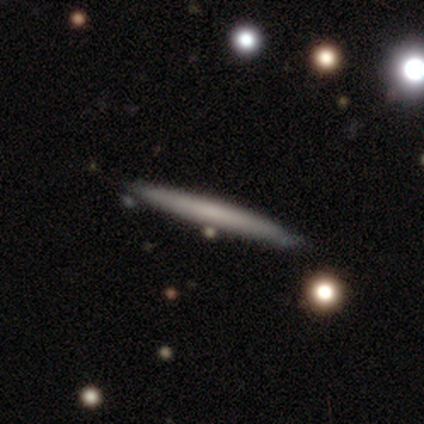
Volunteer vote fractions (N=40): smooth-or-featured: smooth: 68% | featured or disk: 28% | star or artifact: 5%
  how-rounded: cigar-shaped: 96% | in between: 4% | round: 0%
  merging: none: 63% | major disturbance: 8% | merger: 8% | minor disturbance: 5%